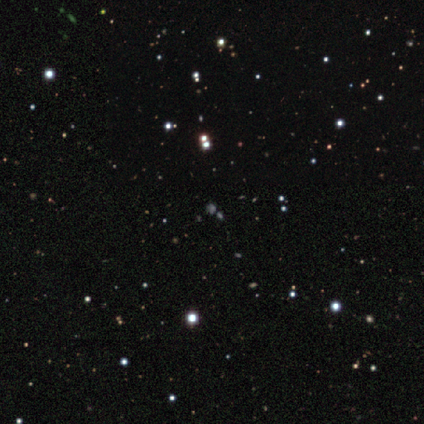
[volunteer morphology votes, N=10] Smooth or featured? star or artifact (70%)